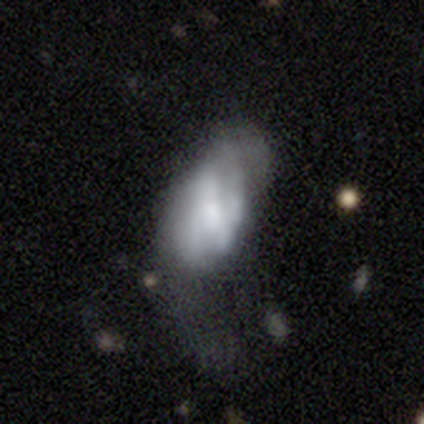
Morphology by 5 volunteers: Smooth or featured? smooth (60%)
How rounded? in between (100%)
Merging? minor disturbance (60%)